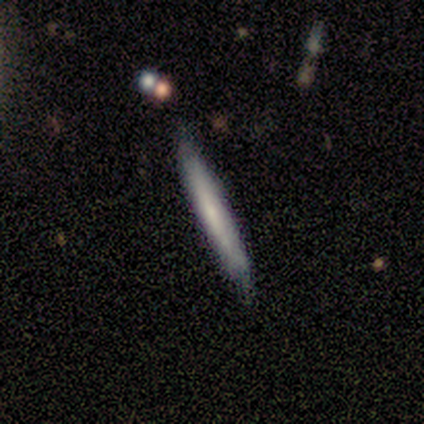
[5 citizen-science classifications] smooth_or_featured: featured or disk (p=0.80) [alt: smooth p=0.20]
disk_edge_on: yes (p=1.00)
edge_on_bulge: none (p=0.50) [alt: boxy p=0.25]
merging: none (p=0.80) [alt: minor disturbance p=0.20]